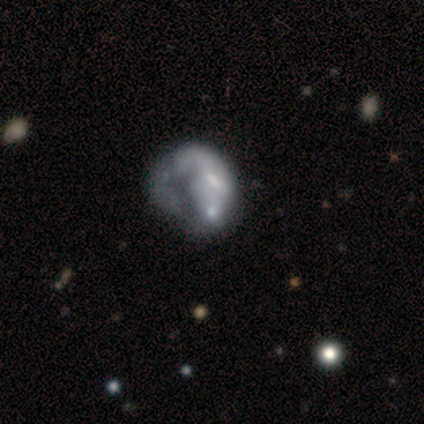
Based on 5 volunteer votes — Smooth or featured? 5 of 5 (100%) said featured or disk. Edge-on disk? 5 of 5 (100%) said no. Bar? 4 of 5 (80%) said weak. Spiral arms? 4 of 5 (80%) said no. Bulge size? 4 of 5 (80%) said small. Merging? 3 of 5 (60%) said major disturbance.